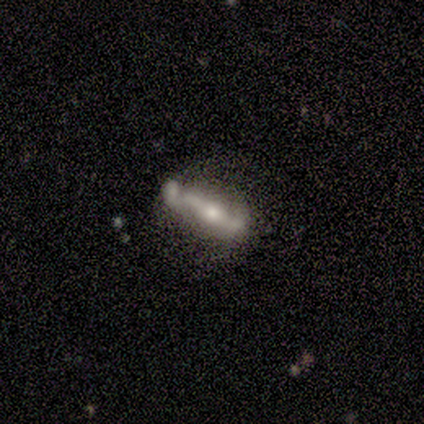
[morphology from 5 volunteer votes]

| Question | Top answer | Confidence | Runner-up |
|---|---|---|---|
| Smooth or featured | featured or disk | 80% | smooth (20%) |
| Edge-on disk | yes | 50% | tied: no (50%) |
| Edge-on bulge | rounded | 100% | — |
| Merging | none | 60% | minor disturbance (20%) |